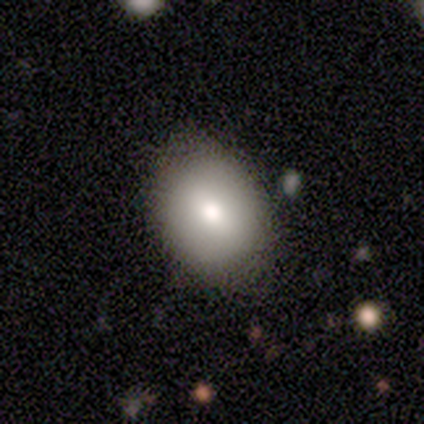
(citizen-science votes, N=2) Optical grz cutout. It shows a smooth galaxy with no disk features (100%) that is in between round and cigar-shaped (100%). Merging: none (100%).